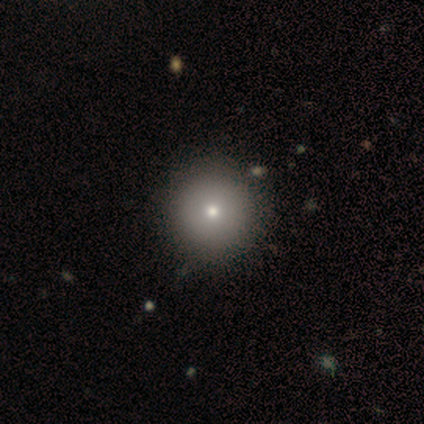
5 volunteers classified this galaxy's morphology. smooth-or-featured: smooth: 80% | featured or disk: 20% | star or artifact: 0%
  how-rounded: round: 100% | in between: 0% | cigar-shaped: 0%
  merging: none: 100% | minor disturbance: 0% | major disturbance: 0% | merger: 0%